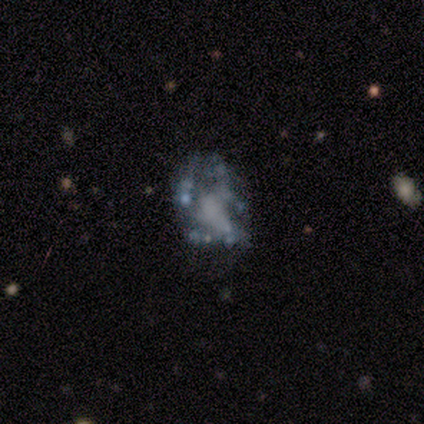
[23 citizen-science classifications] This is likely a featured or disk galaxy (70%). It is clearly not viewed edge-on (100%). Bar: clearly no (88%). Spiral arm pattern: clearly no (94%). Central bulge: likely none (69%). Merging: marginally major disturbance (42%).